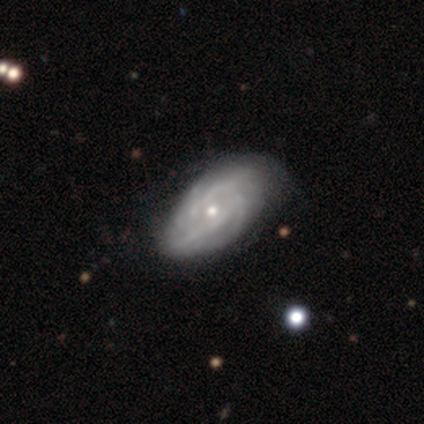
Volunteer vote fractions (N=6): Overall: featured or disk (67%). Edge-on disk: no (100%). Bar: no (100%). Spiral arms: yes (100%). Spiral arm count: 2 (50%, tied with can't tell). Spiral winding: tight (75%). Bulge size: small (75%). Merging: none (80%).